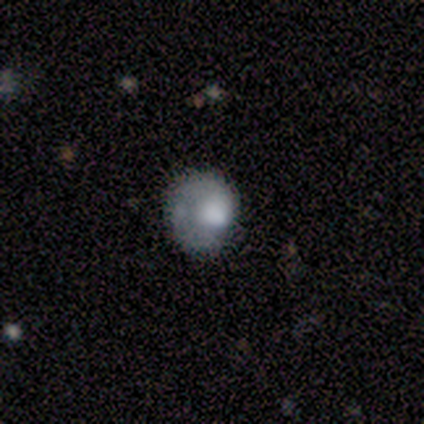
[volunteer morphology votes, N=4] This appears to be a smooth galaxy with no disk features (100%) that is round (75%). Merging: none (50%).